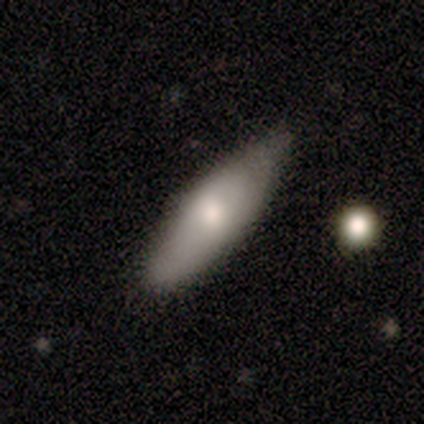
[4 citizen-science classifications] This appears to be a smooth galaxy with no disk features (100%) that is in between round and cigar-shaped (75%). Merging: none (50%).